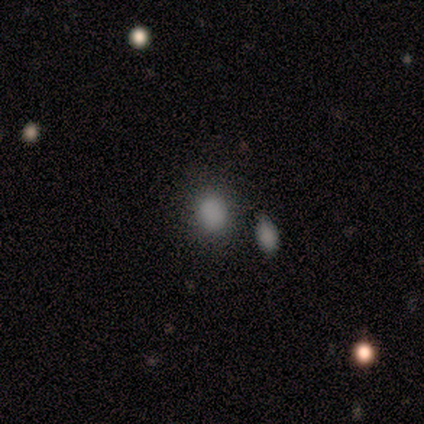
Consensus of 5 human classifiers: Overall: smooth (100%). How rounded: in between (60%; round 40%). Merging: none (100%).